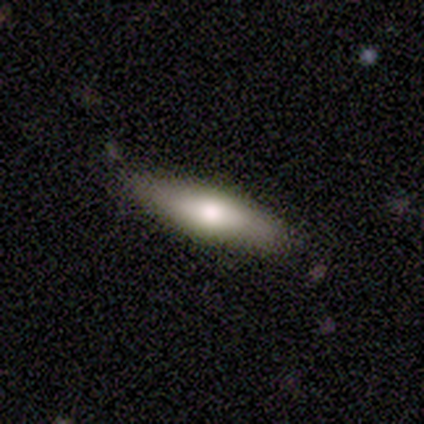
Q: Smooth or featured?
A: smooth (100%)
Q: How rounded?
A: in between (50%); tied with: cigar-shaped (50%)
Q: Merging?
A: none (100%)